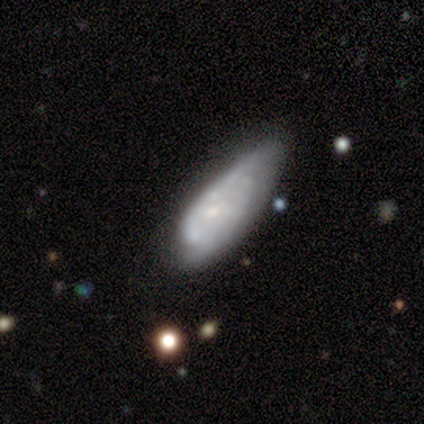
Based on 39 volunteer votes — A featured or disk galaxy (49%) with no bar (68%), 2 (43%, tied with can't tell) tight (50%) spiral arms (74%) and a small central bulge (63%).

Vote fractions:
- Smooth or featured? featured or disk: 49% / smooth: 41% / star or artifact: 10%
- Edge-on disk? no: 100% / yes: 0%
- Bar? no: 68% / weak: 32% / strong: 0%
- Spiral arms? yes: 74% / no: 26%
- Spiral winding? tight: 50% / medium: 36% / loose: 14%
- Spiral arm count? 2: 43% (tied) / can't tell: 43% (tied) / 1: 7% / 3: 7% / 4: 0% / more than 4: 0%
- Bulge size? small: 63% / moderate: 21% / none: 16% / dominant: 0% / large: 0%
- Merging? minor disturbance: 43% / major disturbance: 31% / none: 26% / merger: 0%